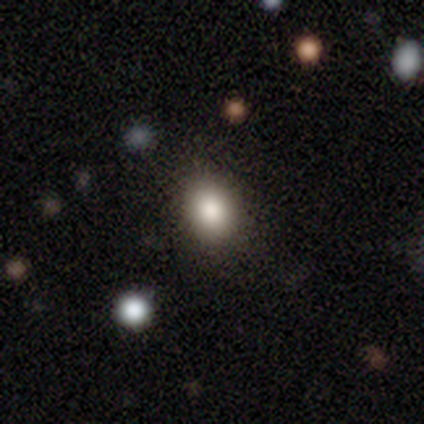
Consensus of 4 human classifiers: Smooth or featured: smooth — 75% (star or artifact — 25%)
How rounded: in between — 100%
Merging: none — 100%